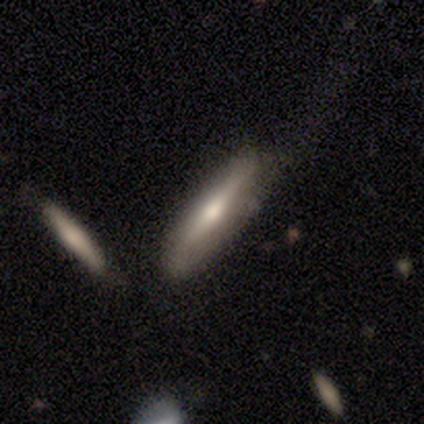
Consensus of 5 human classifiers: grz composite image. It shows a smooth galaxy with no disk features (40%, tied with featured or disk) that is cigar-shaped (100%). Merging: none (75%).